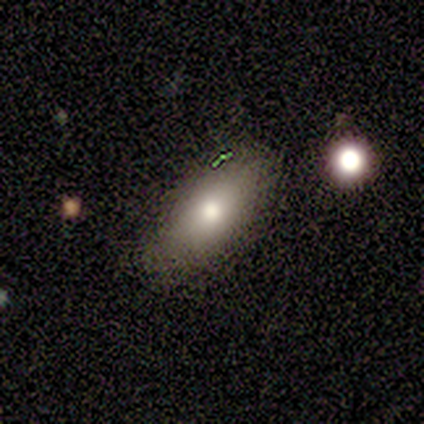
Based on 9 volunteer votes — smooth_or_featured: smooth (p=0.78) [alt: featured or disk p=0.11]
how_rounded: in between (p=0.71) [alt: cigar-shaped p=0.29]
merging: none (p=0.88) [alt: minor disturbance p=0.12]